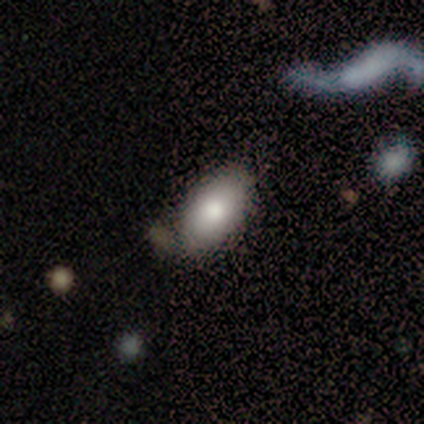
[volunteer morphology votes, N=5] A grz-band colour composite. It shows a smooth galaxy with no disk features (80%) that is in between round and cigar-shaped (100%). Merging: none (40%, tied with minor disturbance).